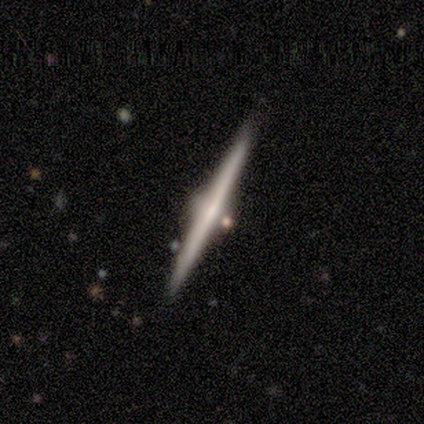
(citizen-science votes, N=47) This appears to be a featured or disk galaxy (87%) viewed edge-on (100%) with a rounded central bulge (78%). Merging: none (87%).